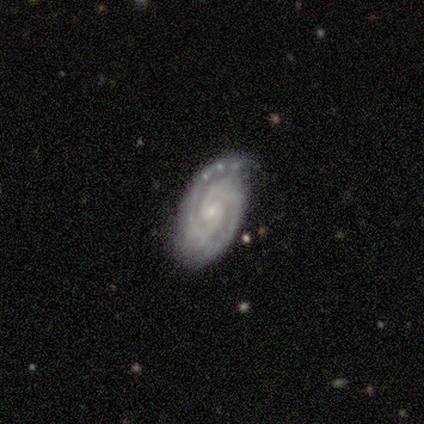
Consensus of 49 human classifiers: Smooth or featured?
  - featured or disk: 94% *
  - smooth: 4%
  - star or artifact: 2%
Edge-on disk?
  - no: 100% *
  - yes: 0%
Bar?
  - no: 78% *
  - weak: 13%
  - strong: 9%
Spiral arms?
  - yes: 100% *
  - no: 0%
Spiral winding?
  - tight: 63% *
  - medium: 37%
  - loose: 0%
Spiral arm count?
  - 2: 85% *
  - 3: 11%
  - 1: 2%
  - more than 4: 2%
  - 4: 0%
  - can't tell: 0%
Bulge size?
  - small: 87% *
  - moderate: 13%
  - dominant: 0%
  - large: 0%
  - none: 0%
Merging?
  - none: 69% *
  - minor disturbance: 29%
  - major disturbance: 2%
  - merger: 0%